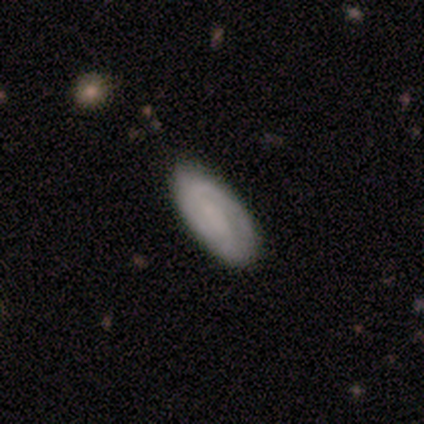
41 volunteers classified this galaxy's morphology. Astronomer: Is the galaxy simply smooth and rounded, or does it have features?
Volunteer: smooth — 49% (runner-up: featured or disk, 46%).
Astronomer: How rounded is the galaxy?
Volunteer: in between — 85%.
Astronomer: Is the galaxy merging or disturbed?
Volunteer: none — 87%.